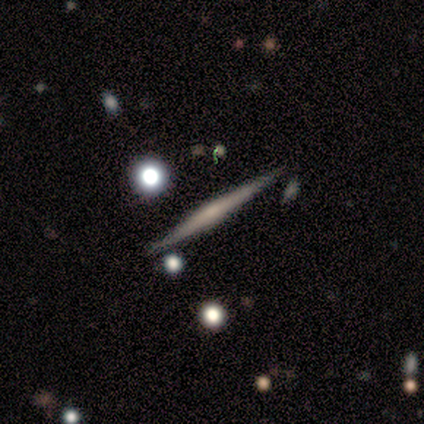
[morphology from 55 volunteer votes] A featured or disk galaxy (76%) viewed edge-on (98%) with a rounded central bulge (41%). Merging: none (74%).